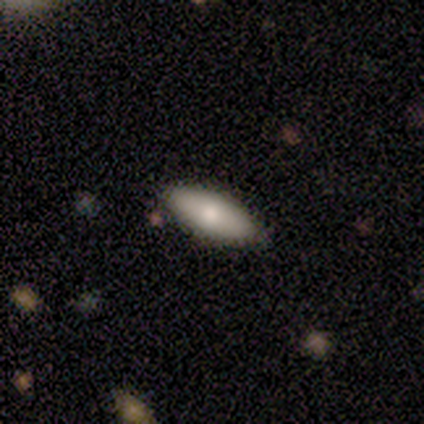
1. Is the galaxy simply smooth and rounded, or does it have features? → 67% smooth, 33% featured or disk, 0% star or artifact.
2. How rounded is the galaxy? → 50% in between (tied), 50% cigar-shaped (tied), 0% round.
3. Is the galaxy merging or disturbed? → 100% none, 0% minor disturbance, 0% major disturbance, 0% merger.